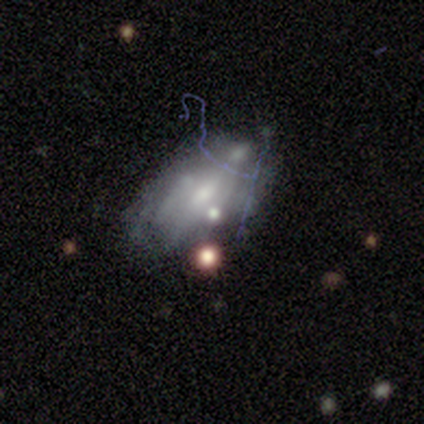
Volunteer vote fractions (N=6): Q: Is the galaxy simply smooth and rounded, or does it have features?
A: featured or disk — 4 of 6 (67%).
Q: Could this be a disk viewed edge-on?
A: no — 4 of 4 (100%).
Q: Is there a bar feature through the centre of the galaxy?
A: no — 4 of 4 (100%).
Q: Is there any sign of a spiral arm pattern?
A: no — 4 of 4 (100%).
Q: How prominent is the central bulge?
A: moderate — 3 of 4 (75%).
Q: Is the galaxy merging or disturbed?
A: none — 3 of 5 (60%).